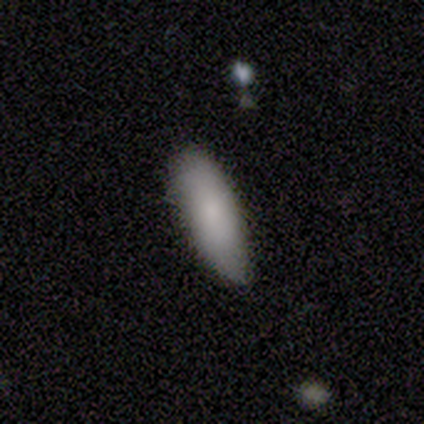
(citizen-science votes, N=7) smooth-or-featured: smooth: 100% | featured or disk: 0% | star or artifact: 0%
  how-rounded: in between: 71% | cigar-shaped: 29% | round: 0%
  merging: none: 86% | minor disturbance: 14% | major disturbance: 0% | merger: 0%